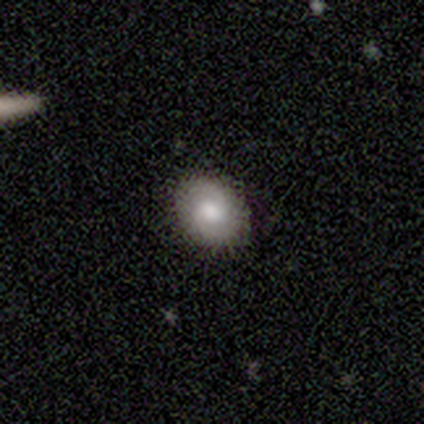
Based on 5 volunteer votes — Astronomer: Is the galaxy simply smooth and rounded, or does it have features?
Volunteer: featured or disk — 80%.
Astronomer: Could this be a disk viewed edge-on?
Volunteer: no — 100%.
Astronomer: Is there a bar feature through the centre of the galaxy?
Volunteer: weak — 50%, tied with no at 50%.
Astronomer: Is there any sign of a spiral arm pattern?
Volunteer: yes — 100%.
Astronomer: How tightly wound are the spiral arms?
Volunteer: loose — 75%.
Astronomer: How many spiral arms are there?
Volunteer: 2 — 100%.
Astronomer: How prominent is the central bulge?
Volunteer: large — 50%, tied with moderate at 50%.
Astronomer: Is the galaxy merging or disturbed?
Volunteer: none — 80%.